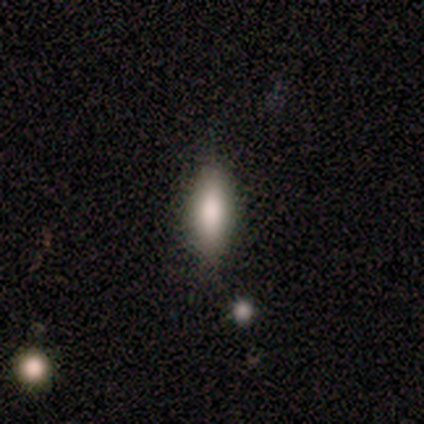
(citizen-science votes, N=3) Smooth or featured? 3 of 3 (100%) said smooth. How rounded? 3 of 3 (100%) said in between. Merging? 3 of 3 (100%) said none.